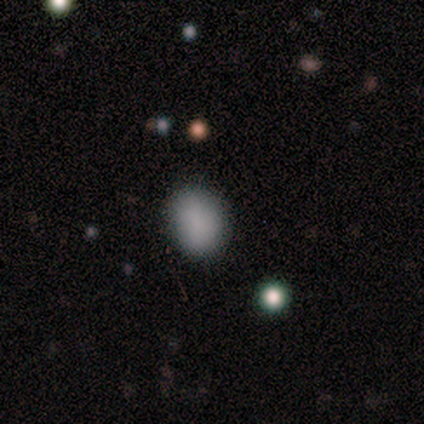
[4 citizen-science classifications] smooth_or_featured: smooth (p=1.00)
how_rounded: in between (p=0.75) [alt: round p=0.25]
merging: none (p=1.00)